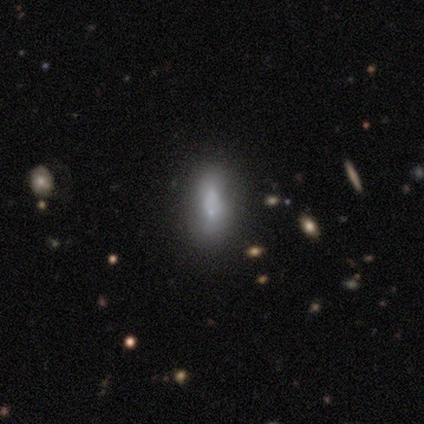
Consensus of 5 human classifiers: smooth 60%, featured or disk 20%, star or artifact 20%. Down the decision tree: how rounded — cigar-shaped (100%); merging — none (75%).